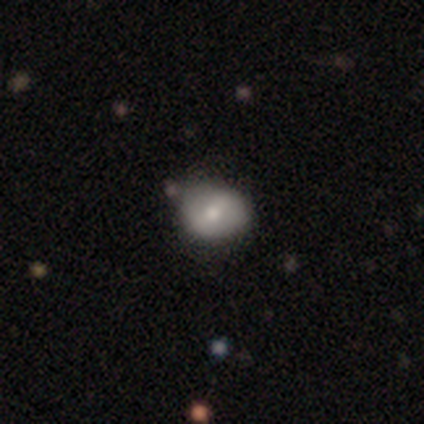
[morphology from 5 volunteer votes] This appears to be a featured or disk galaxy (60%) with a weak bar (100%), no spiral arms (100%) and a moderate central bulge (67%). Merging: none (60%).